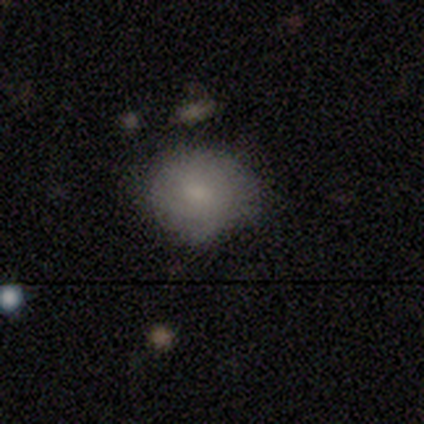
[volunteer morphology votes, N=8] Smooth or featured? smooth (88%)
How rounded? round (71%)
Merging? none (62%)